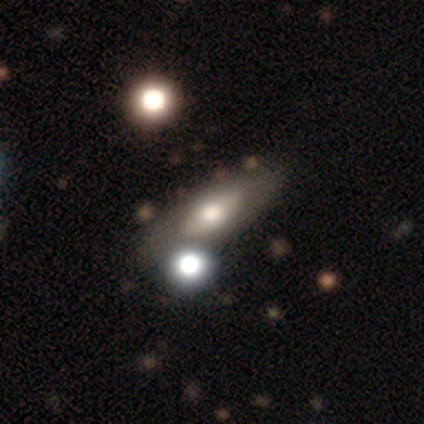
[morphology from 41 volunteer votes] This appears to be a smooth galaxy with no disk features (49%) that is in between round and cigar-shaped (85%). Merging: none (66%).